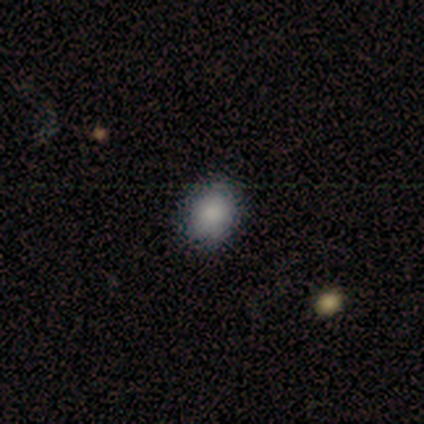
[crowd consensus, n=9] Smooth or featured? smooth (100%)
How rounded? in between (56%)
Merging? none (78%)